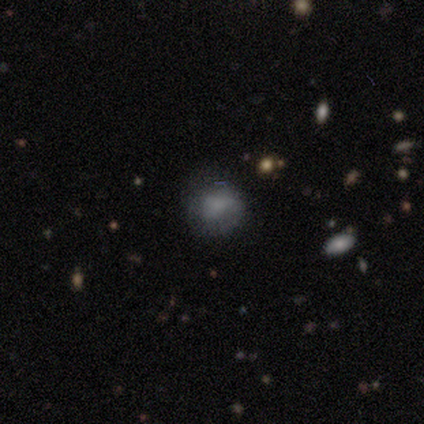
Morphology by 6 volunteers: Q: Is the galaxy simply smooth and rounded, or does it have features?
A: featured or disk — 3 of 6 (50%).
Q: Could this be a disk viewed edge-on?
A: no — 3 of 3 (100%).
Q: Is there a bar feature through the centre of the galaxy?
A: no — 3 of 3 (100%).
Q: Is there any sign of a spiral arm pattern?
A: no — 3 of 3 (100%).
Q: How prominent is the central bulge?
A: large — 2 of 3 (67%).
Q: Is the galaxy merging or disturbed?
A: none — 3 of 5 (60%).